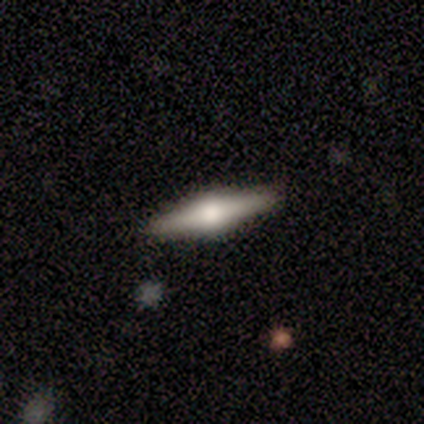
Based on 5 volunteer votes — Q: Smooth or featured?
A: featured or disk (60%); runner-up: smooth (40%)
Q: Edge-on disk?
A: yes (100%)
Q: Edge-on bulge?
A: rounded (100%)
Q: Merging?
A: none (80%); runner-up: minor disturbance (20%)